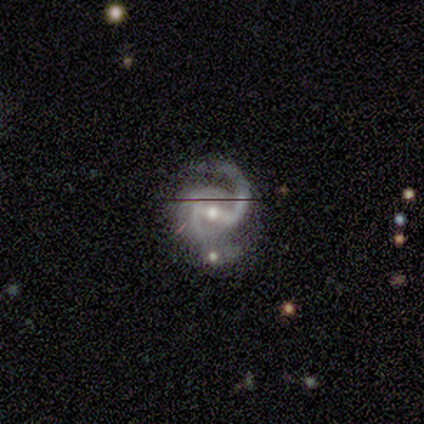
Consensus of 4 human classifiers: smooth_or_featured: featured or disk (p=1.00)
disk_edge_on: no (p=1.00)
bar: strong (p=0.50) [alt: weak p=0.25]
has_spiral_arms: yes (p=1.00)
spiral_winding: medium (p=0.50) [tied with: loose p=0.50]
spiral_arm_count: 2 (p=0.75) [alt: 3 p=0.25]
bulge_size: moderate (p=0.75) [alt: large p=0.25]
merging: merger (p=0.50) [alt: none p=0.25]